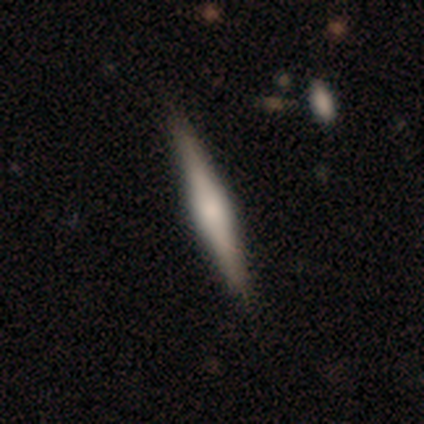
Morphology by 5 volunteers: smooth_or_featured: featured or disk (p=1.00)
disk_edge_on: yes (p=1.00)
edge_on_bulge: rounded (p=0.80) [alt: boxy p=0.20]
merging: none (p=0.80) [alt: minor disturbance p=0.20]